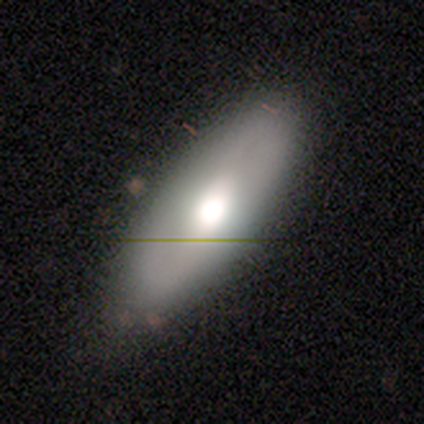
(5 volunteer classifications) Morphology: type=smooth (100%); roundness=in between (60%); merging=none (100%).